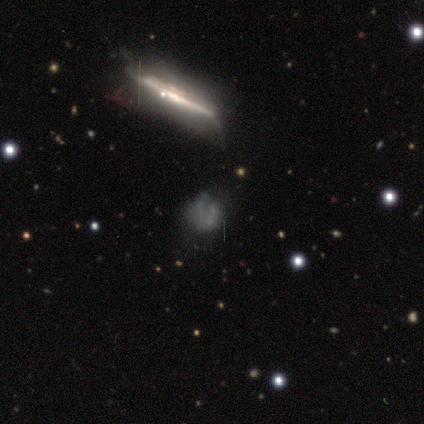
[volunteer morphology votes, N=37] This appears to be a featured or disk galaxy (59%) viewed edge-on (50%, tied with no) with no central bulge (55%). Merging: none (48%).